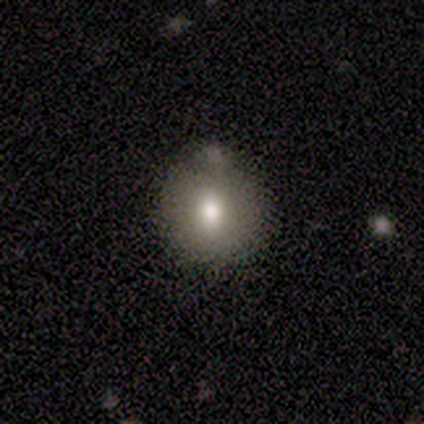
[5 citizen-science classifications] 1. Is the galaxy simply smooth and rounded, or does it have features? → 100% smooth, 0% featured or disk, 0% star or artifact.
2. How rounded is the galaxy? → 100% round, 0% in between, 0% cigar-shaped.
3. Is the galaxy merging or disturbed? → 80% none, 20% minor disturbance, 0% major disturbance, 0% merger.